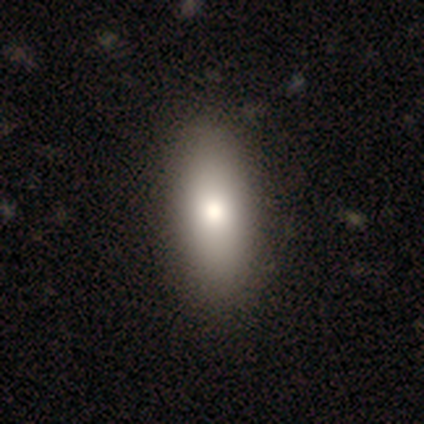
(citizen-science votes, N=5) smooth-or-featured: smooth: 80% | featured or disk: 20% | star or artifact: 0%
  how-rounded: in between: 50% (tied) | cigar-shaped: 50% (tied) | round: 0%
  merging: none: 100% | minor disturbance: 0% | major disturbance: 0% | merger: 0%